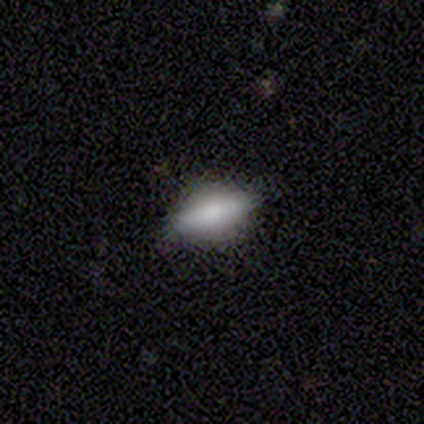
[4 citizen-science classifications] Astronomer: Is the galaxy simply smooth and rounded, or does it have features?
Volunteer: smooth — 75%.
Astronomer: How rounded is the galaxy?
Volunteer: in between — 67%.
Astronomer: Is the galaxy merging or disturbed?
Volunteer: none — 100%.